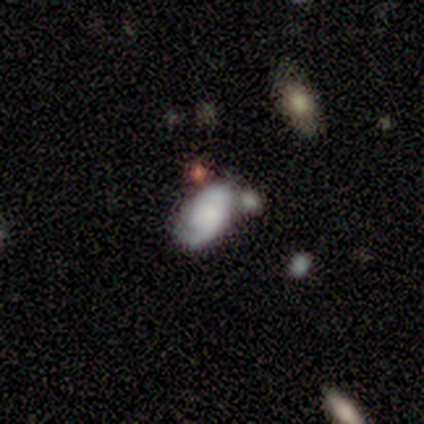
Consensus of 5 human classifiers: A featured or disk galaxy (80%) with no bar (75%), 2 (75%) tight (50%) spiral arms (100%) and a small central bulge (75%).

Vote fractions:
- Smooth or featured? featured or disk: 80% / smooth: 20% / star or artifact: 0%
- Edge-on disk? no: 100% / yes: 0%
- Bar? no: 75% / weak: 25% / strong: 0%
- Spiral arms? yes: 100% / no: 0%
- Spiral winding? tight: 50% / medium: 25% / loose: 25%
- Spiral arm count? 2: 75% / 1: 25% / 3: 0% / 4: 0% / more than 4: 0% / can't tell: 0%
- Bulge size? small: 75% / none: 25% / dominant: 0% / large: 0% / moderate: 0%
- Merging? merger: 40% / none: 20% / minor disturbance: 20% / major disturbance: 20%